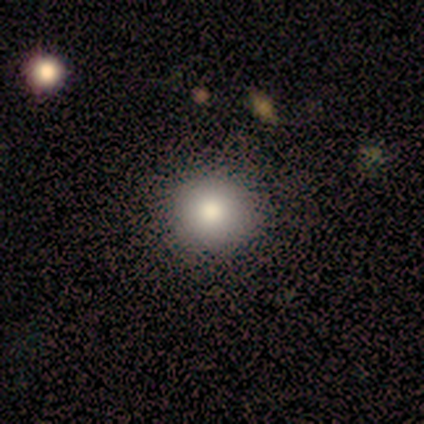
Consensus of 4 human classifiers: Smooth or featured? smooth (100%)
How rounded? round (100%)
Merging? none (50%, tied with minor disturbance)